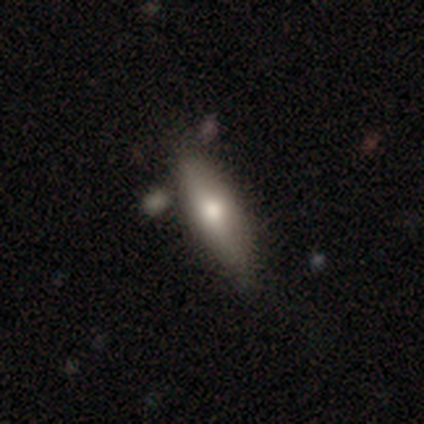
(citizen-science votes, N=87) Q: Smooth or featured?
A: smooth (61%); runner-up: featured or disk (29%)
Q: How rounded?
A: cigar-shaped (72%); runner-up: in between (28%)
Q: Merging?
A: none (72%); runner-up: minor disturbance (19%)